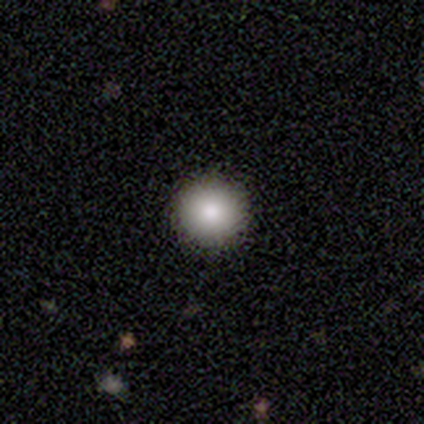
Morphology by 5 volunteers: This appears to be a smooth galaxy with no disk features (60%) that is round (100%). Merging: none (100%).